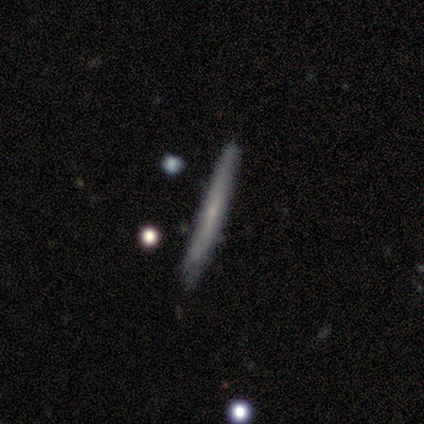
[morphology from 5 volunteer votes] Smooth or featured: smooth — 40% (tied with featured or disk — 40%)
How rounded: cigar-shaped — 100%
Merging: none — 75% (minor disturbance — 25%)